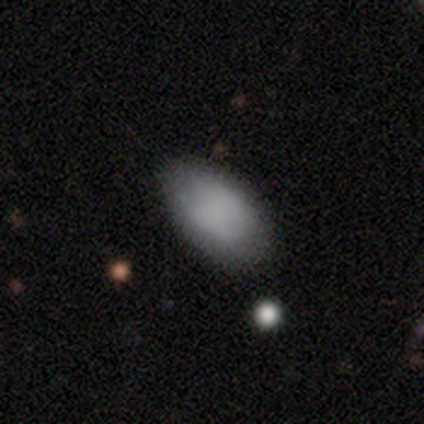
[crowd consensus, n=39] Smooth or featured? 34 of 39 (87%) said smooth. How rounded? 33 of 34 (97%) said in between. Merging? 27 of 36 (75%) said none.